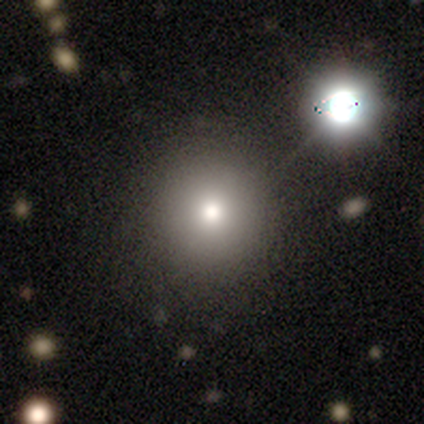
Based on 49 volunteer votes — Smooth or featured: smooth — 65% (star or artifact — 18%)
How rounded: round — 94% (in between — 6%)
Merging: none — 72% (major disturbance — 12%)